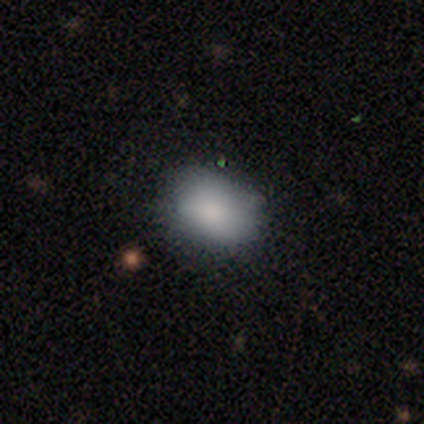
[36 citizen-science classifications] A smooth galaxy with no disk features (78%) that is in between round and cigar-shaped (79%).

Vote fractions:
- Smooth or featured? smooth: 78% / featured or disk: 11% / star or artifact: 11%
- How rounded? in between: 79% / round: 21% / cigar-shaped: 0%
- Merging? none: 62% / minor disturbance: 25% / major disturbance: 9% / merger: 3%